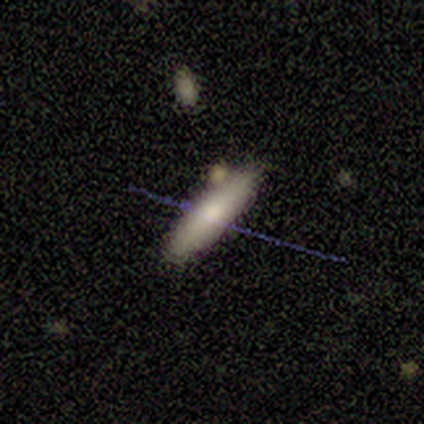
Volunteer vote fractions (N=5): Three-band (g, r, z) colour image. It shows a smooth galaxy with no disk features (60%) that is cigar-shaped (67%). Merging: none (100%).